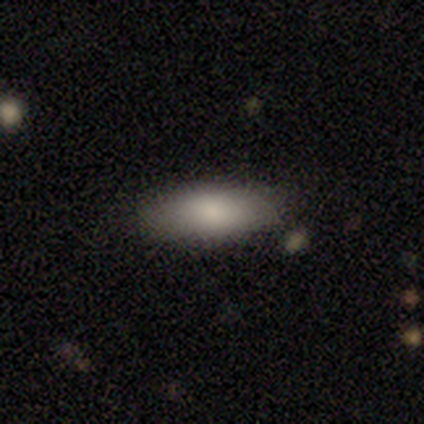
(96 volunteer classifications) This is likely a smooth galaxy (79%). How rounded: likely in between (79%). Merging: clearly none (84%).